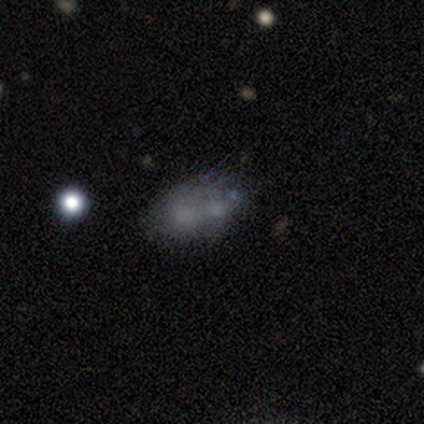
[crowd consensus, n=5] Smooth or featured? smooth (60%)
How rounded? in between (100%)
Merging? minor disturbance (60%)